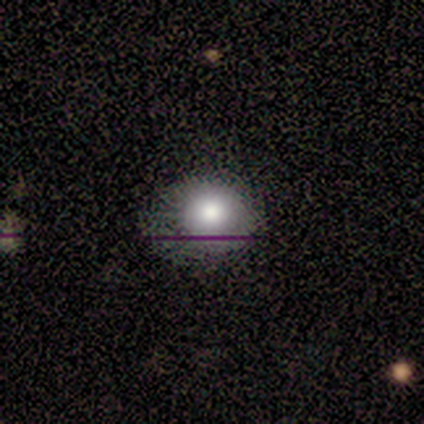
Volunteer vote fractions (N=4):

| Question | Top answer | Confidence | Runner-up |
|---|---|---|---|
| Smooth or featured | star or artifact | 50% | smooth (25%) |